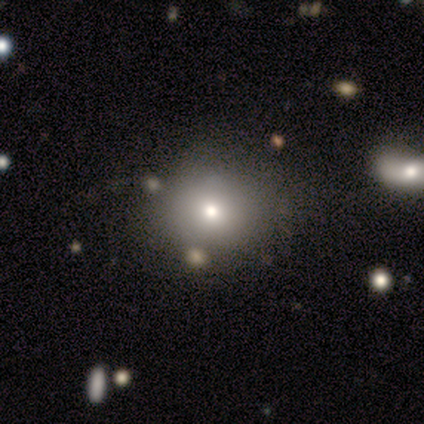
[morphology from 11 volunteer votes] A smooth galaxy with no disk features (55%) that is round (83%).

Vote fractions:
- Smooth or featured? smooth: 55% / star or artifact: 27% / featured or disk: 18%
- How rounded? round: 83% / in between: 17% / cigar-shaped: 0%
- Merging? none: 38% (tied) / minor disturbance: 38% (tied) / major disturbance: 12% / merger: 12%